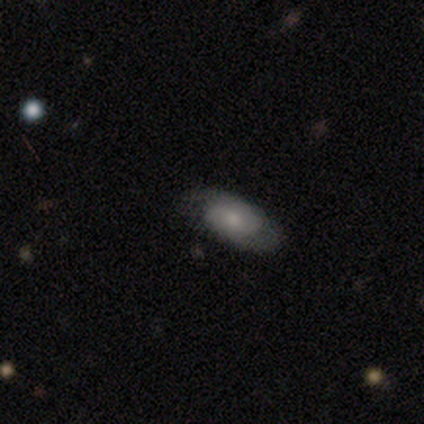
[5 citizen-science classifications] Smooth or featured? 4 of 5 (80%) said smooth. How rounded? 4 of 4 (100%) said in between. Merging? 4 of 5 (80%) said none.